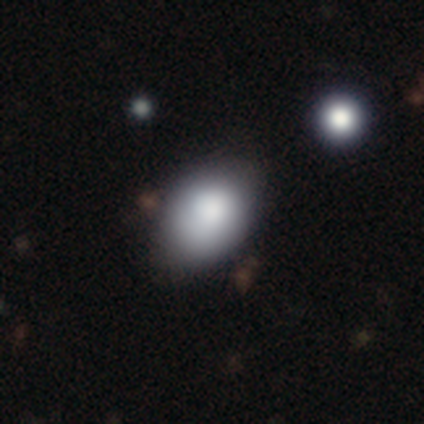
A smooth galaxy with no disk features (84%) that is in between round and cigar-shaped (68%).

Vote fractions:
- Smooth or featured? smooth: 84% / star or artifact: 11% / featured or disk: 5%
- How rounded? in between: 68% / round: 29% / cigar-shaped: 3%
- Merging? none: 64% / minor disturbance: 30% / major disturbance: 6% / merger: 0%